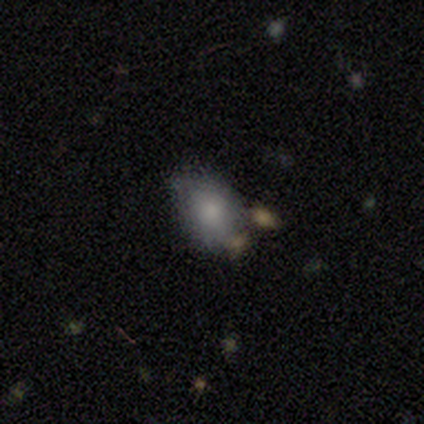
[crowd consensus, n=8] Morphology: type=smooth (62%); roundness=in between (60%); merging=none (50%).